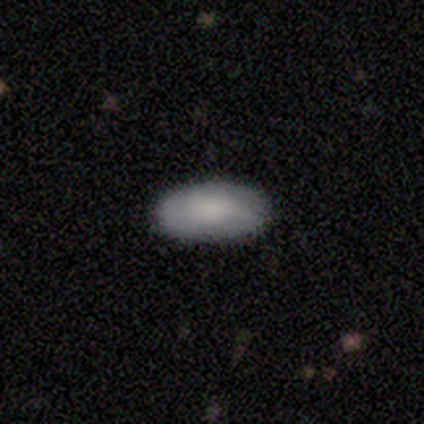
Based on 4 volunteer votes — smooth 75%, featured or disk 25%, star or artifact 0%. Down the decision tree: how rounded — in between (100%); merging — none (75%).